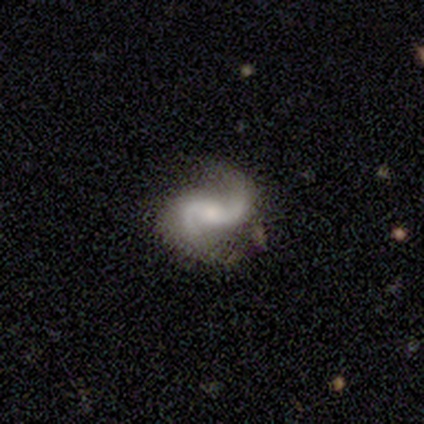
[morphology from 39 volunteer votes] smooth-or-featured: featured or disk: 95% | star or artifact: 5% | smooth: 0%
  disk-edge-on: no: 100% | yes: 0%
    bar: no: 43% | weak: 32% | strong: 24%
    has-spiral-arms: yes: 100% | no: 0%
      spiral-winding: loose: 68% | medium: 27% | tight: 5%
      spiral-arm-count: 2: 92% | 1: 8% | 3: 0% | 4: 0% | more than 4: 0% | can't tell: 0%
    bulge-size: moderate: 54% | small: 41% | large: 3% | none: 3% | dominant: 0%
  merging: none: 81% | minor disturbance: 16% | major disturbance: 3% | merger: 0%